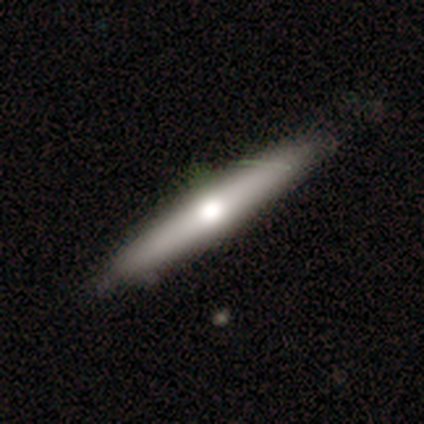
A smooth galaxy with no disk features (67%) that is cigar-shaped (100%). Merging: none (100%).